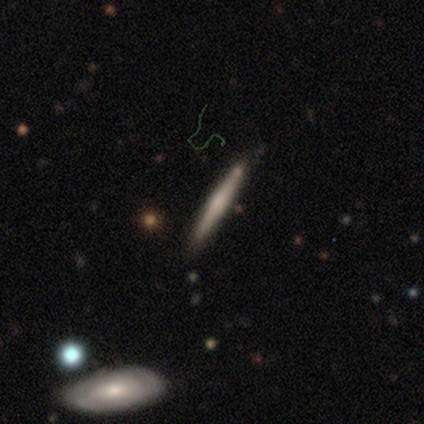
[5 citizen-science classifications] Overall: featured or disk (80%). Edge-on disk: yes (100%). Edge-on bulge: none (50%; boxy 25%). Merging: none (100%).